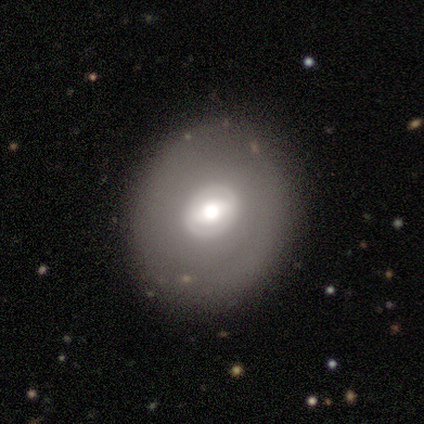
Smooth or featured? 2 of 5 (40%, tied with featured or disk) said smooth. How rounded? 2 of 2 (100%) said round. Merging? 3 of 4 (75%) said none.